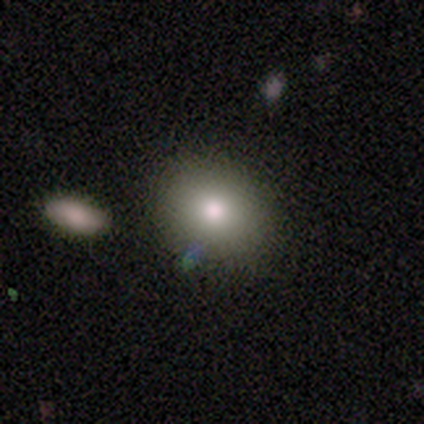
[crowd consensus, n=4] Morphology: type=smooth (75%); roundness=in between (67%); merging=none (100%).